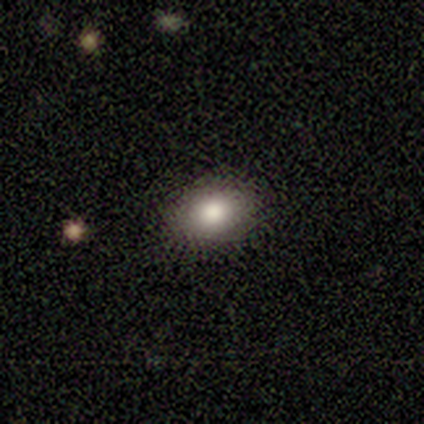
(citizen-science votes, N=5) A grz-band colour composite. It shows a smooth galaxy with no disk features (100%) that is in between round and cigar-shaped (100%). Merging: none (100%).